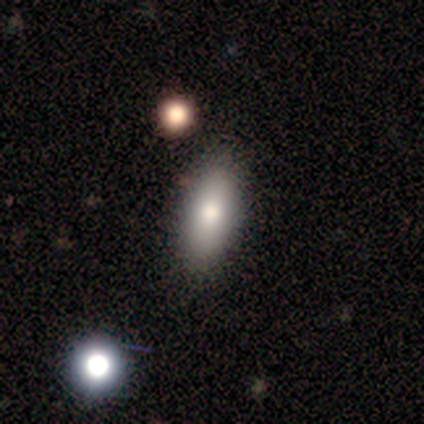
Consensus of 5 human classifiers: Volunteers were most divided on "how rounded": in between: 80%, cigar-shaped: 20%, round: 0%. More confident: smooth or featured — smooth (100%); merging — none (100%).